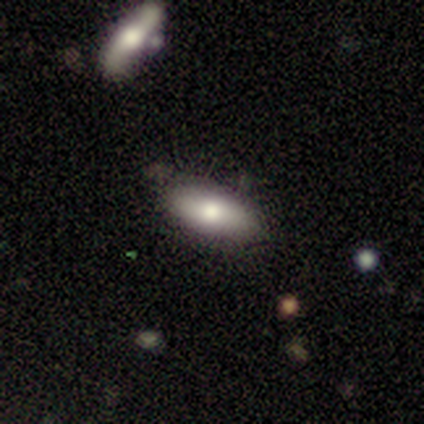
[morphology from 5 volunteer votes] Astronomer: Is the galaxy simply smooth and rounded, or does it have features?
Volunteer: smooth — 100%.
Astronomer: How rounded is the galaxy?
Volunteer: in between — 100%.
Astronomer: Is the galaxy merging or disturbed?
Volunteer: none — 80%.